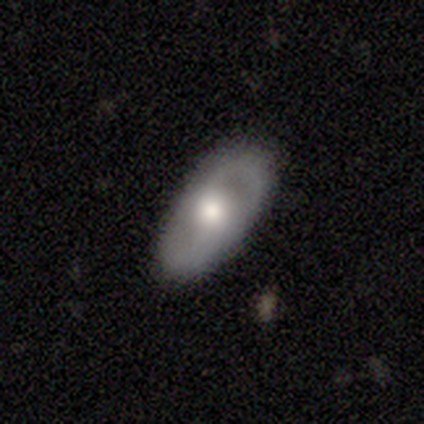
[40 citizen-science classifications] Smooth or featured?
  - featured or disk: 57% *
  - smooth: 38%
  - star or artifact: 5%
Edge-on disk?
  - no: 100% *
  - yes: 0%
Bar?
  - no: 70% *
  - weak: 26%
  - strong: 4%
Spiral arms?
  - yes: 61% *
  - no: 39%
Spiral winding?
  - medium: 64% *
  - loose: 21%
  - tight: 14%
Spiral arm count?
  - 2: 93% *
  - can't tell: 7%
  - 1: 0%
  - 3: 0%
  - 4: 0%
  - more than 4: 0%
Bulge size?
  - moderate: 83% *
  - large: 9%
  - dominant: 4%
  - small: 4%
  - none: 0%
Merging?
  - none: 74% *
  - minor disturbance: 21%
  - major disturbance: 5%
  - merger: 0%